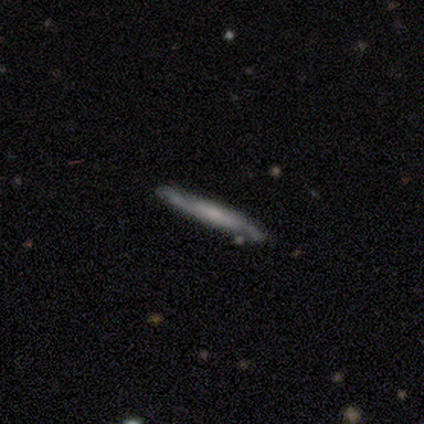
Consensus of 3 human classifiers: This is marginally a smooth galaxy (33%, tied with featured or disk and star or artifact). How rounded: clearly cigar-shaped (100%). Merging: clearly none (100%).